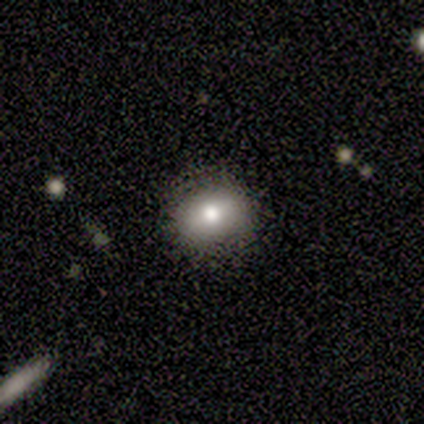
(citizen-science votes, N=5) Morphology: type=smooth (60%); roundness=round (100%); merging=none (100%).